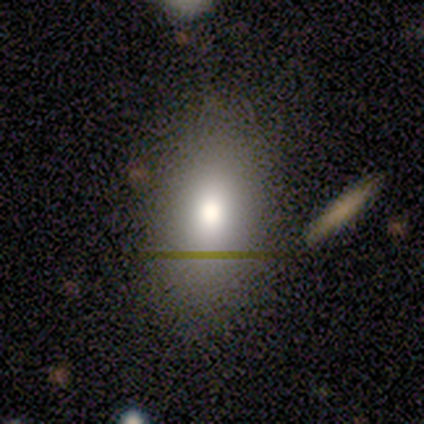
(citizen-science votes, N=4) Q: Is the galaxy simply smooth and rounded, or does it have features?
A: smooth — 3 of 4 (75%).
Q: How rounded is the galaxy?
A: in between — 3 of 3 (100%).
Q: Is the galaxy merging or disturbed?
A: none — 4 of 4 (100%).